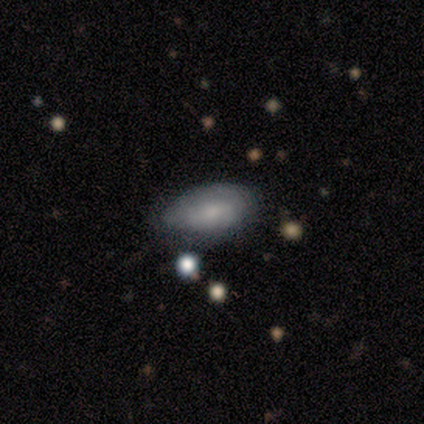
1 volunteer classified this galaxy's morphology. Overall: featured or disk (100%). Edge-on disk: no (100%). Bar: weak (100%). Spiral arms: yes (100%). Spiral arm count: can't tell (100%). Spiral winding: tight (100%). Bulge size: moderate (100%). Merging: none (100%).